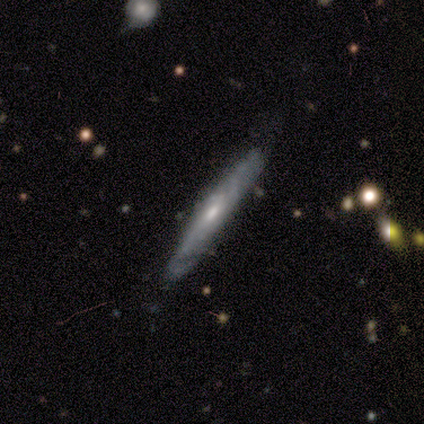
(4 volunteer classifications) Smooth or featured? smooth (50%, tied with featured or disk)
How rounded? cigar-shaped (100%)
Merging? none (75%)